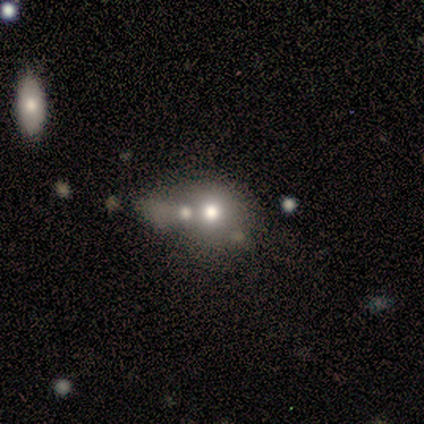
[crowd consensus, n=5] smooth 80%, featured or disk 20%, star or artifact 0%. Down the decision tree: how rounded — round (50%); merging — none (60%).